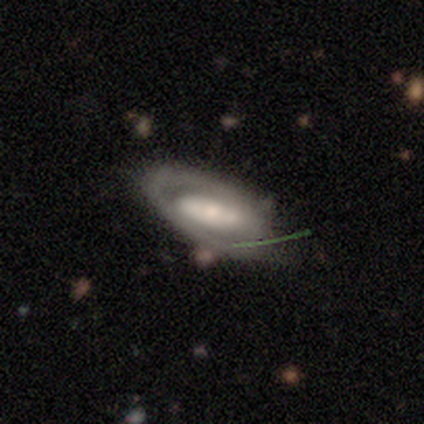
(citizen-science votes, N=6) This is likely a featured or disk galaxy (67%). It is likely not viewed edge-on (75%). Bar: likely weak (67%). Spiral arm pattern: clearly yes (100%). Spiral arm count: likely 2 (67%). Spiral winding: marginally tight (33%, tied with medium and loose). Central bulge: clearly small (100%). Merging: marginally none (40%, tied with minor disturbance).